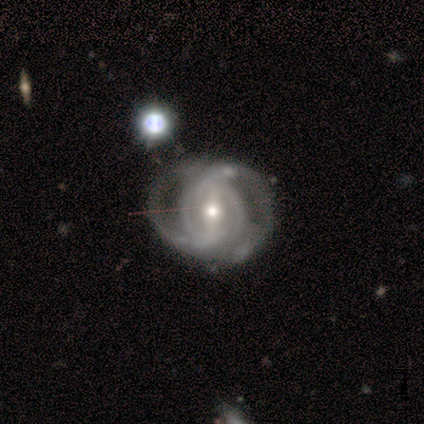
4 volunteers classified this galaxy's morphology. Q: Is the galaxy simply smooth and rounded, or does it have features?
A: featured or disk — 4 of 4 (100%).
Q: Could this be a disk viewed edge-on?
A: no — 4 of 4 (100%).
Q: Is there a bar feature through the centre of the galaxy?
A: strong — 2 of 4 (50%, tied with weak).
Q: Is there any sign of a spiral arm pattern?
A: yes — 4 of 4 (100%).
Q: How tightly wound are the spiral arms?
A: medium — 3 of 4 (75%).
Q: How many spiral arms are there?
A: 2 — 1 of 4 (25%, tied with 4, more than 4 and can't tell).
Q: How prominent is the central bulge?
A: moderate — 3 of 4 (75%).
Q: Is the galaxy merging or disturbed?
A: merger — 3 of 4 (75%).